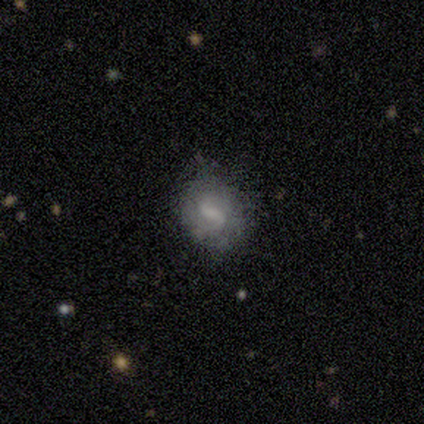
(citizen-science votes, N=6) Volunteers were most divided on "bar": weak: 50%, strong: 25%, no: 25%. More confident: edge-on disk — no (100%); spiral winding — loose (100%); spiral arm count — 2 (100%); spiral arms — yes (75%); smooth or featured — featured or disk (67%); merging — none (67%); bulge size — small (50%).